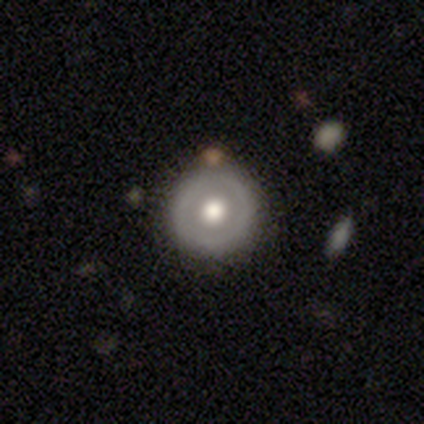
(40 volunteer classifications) smooth-or-featured: smooth: 48% | featured or disk: 42% | star or artifact: 10%
  how-rounded: round: 100% | in between: 0% | cigar-shaped: 0%
  merging: none: 94% | minor disturbance: 3% | merger: 3% | major disturbance: 0%